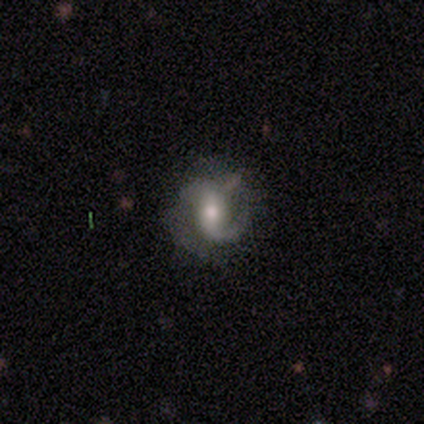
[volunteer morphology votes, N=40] Smooth or featured? 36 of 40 (90%) said featured or disk. Edge-on disk? 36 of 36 (100%) said no. Bar? 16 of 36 (44%) said no. Spiral arms? 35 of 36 (97%) said yes. Spiral winding? 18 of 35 (51%) said medium. Spiral arm count? 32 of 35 (91%) said 2. Bulge size? 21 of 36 (58%) said moderate. Merging? 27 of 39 (69%) said none.